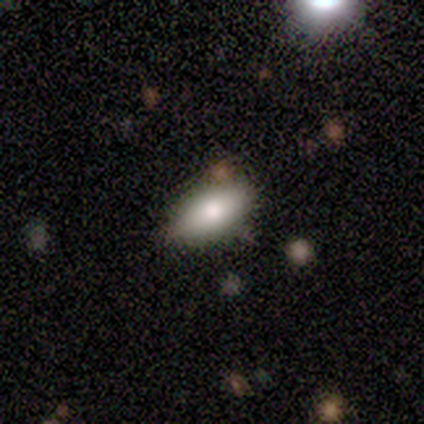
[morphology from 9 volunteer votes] Overall: smooth (100%). How rounded: in between (78%). Merging: none (89%).